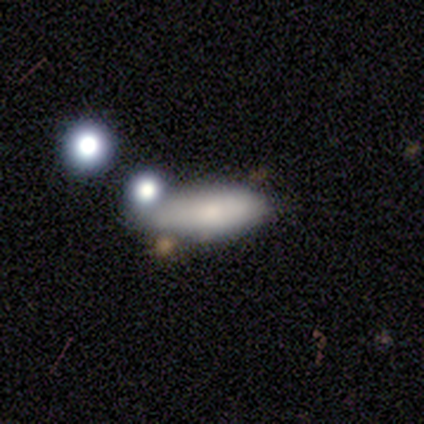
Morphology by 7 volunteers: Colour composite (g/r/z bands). It shows a smooth galaxy with no disk features (100%) that is in between round and cigar-shaped (86%). Merging: none (71%).